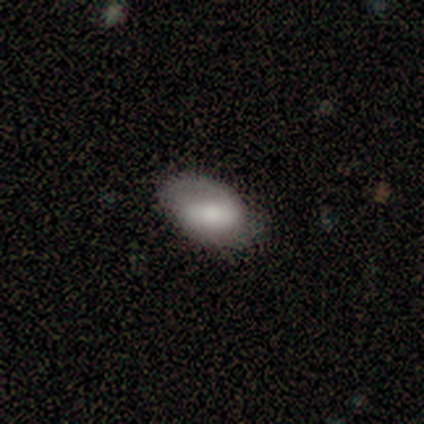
A smooth galaxy with no disk features (100%) that is in between round and cigar-shaped (100%). Merging: none (100%).